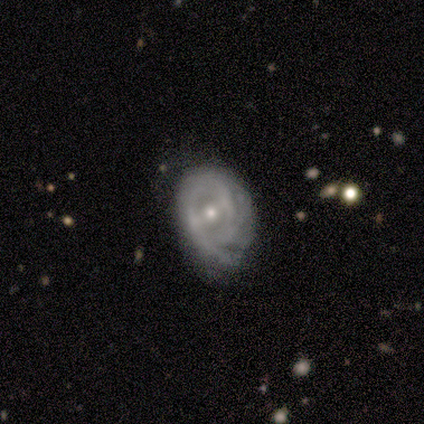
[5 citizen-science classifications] Smooth or featured: featured or disk — 80% (smooth — 20%)
Edge-on disk: no — 100%
Bar: weak — 50% (strong — 25%)
Spiral arms: yes — 75% (no — 25%)
Spiral winding: tight — 100%
Spiral arm count: can't tell — 67% (2 — 33%)
Bulge size: moderate — 50% (tied with small — 50%)
Merging: minor disturbance — 60% (none — 40%)